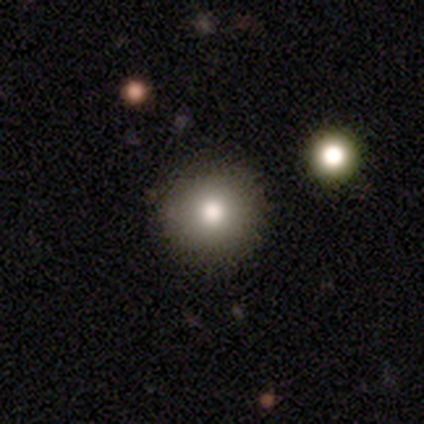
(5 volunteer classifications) smooth 100%, featured or disk 0%, star or artifact 0%. Down the decision tree: how rounded — round (100%); merging — none (80%).